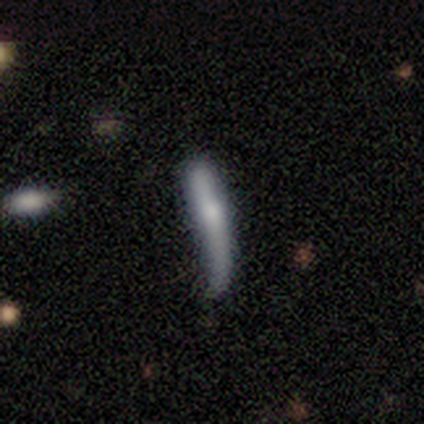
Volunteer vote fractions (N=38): Smooth or featured? smooth (55%)
How rounded? cigar-shaped (95%)
Merging? minor disturbance (46%)